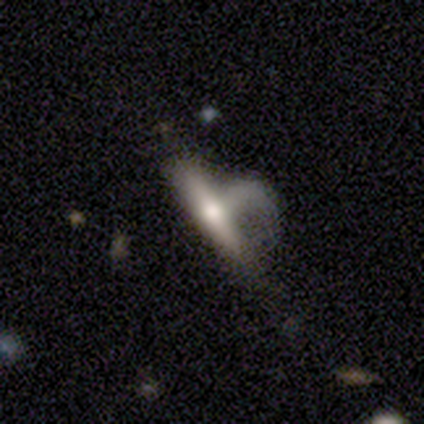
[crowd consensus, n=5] This appears to be a featured or disk galaxy (80%) viewed edge-on (75%) with a rounded central bulge (100%). Merging: major disturbance (60%).